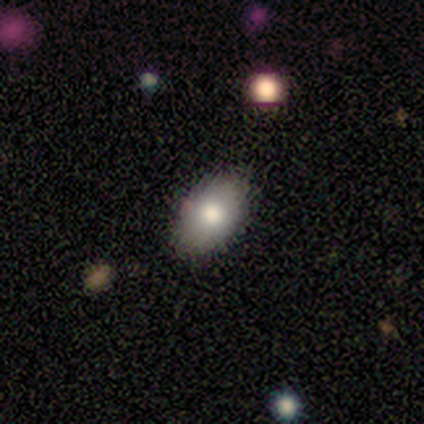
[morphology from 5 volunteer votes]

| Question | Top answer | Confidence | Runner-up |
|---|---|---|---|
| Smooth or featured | smooth | 80% | featured or disk (20%) |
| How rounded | in between | 100% | — |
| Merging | none | 100% | — |